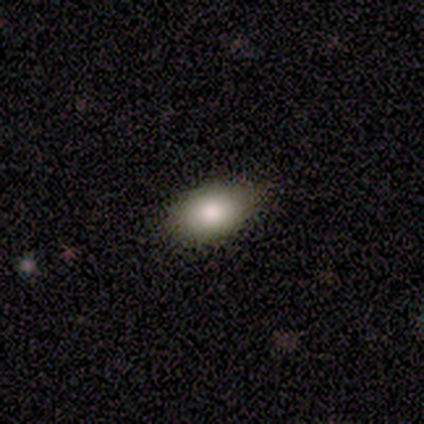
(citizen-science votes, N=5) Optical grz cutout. It shows a smooth galaxy with no disk features (80%) that is in between round and cigar-shaped (100%). Merging: none (75%).